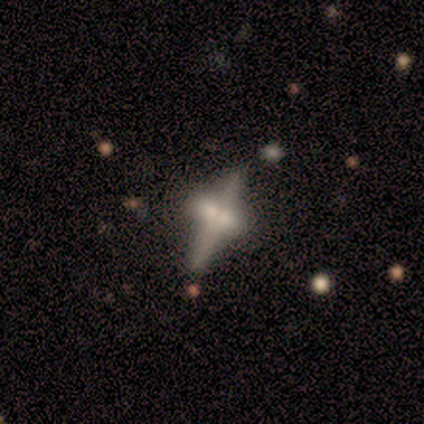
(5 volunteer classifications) Volunteers were most divided on "edge-on disk": yes: 67%, no: 33%. More confident: edge-on bulge — rounded (100%); merging — minor disturbance (75%); smooth or featured — featured or disk (60%).